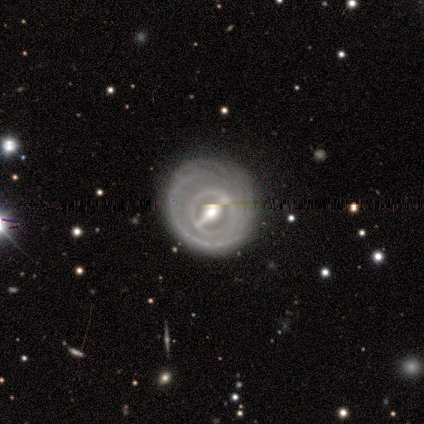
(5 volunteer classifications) This appears to be a featured or disk galaxy (100%) with a strong bar (67%), 2 (33%, tied with more than 4 and can't tell) tight (100%) spiral arms (100%) and a moderate central bulge (100%). Merging: none (60%).